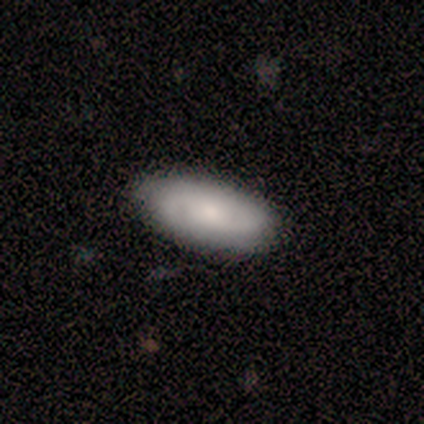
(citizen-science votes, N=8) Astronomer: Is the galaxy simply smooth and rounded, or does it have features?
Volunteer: featured or disk — 62%.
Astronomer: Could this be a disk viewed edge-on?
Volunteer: no — 80%.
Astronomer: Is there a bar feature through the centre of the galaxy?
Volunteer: no — 75%.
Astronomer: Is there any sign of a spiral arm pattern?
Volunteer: yes — 100%.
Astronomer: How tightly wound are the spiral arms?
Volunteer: medium — 75%.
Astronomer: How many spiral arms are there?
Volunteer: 2 — 100%.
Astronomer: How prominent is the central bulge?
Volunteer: moderate — 50%, tied with small at 50%.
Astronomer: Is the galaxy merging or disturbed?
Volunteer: none — 62%.